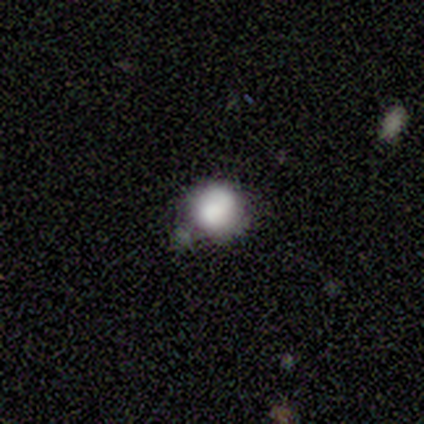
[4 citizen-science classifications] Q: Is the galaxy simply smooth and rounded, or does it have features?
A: smooth — 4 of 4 (100%).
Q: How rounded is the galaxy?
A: round — 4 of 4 (100%).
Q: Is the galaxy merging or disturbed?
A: minor disturbance — 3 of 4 (75%).